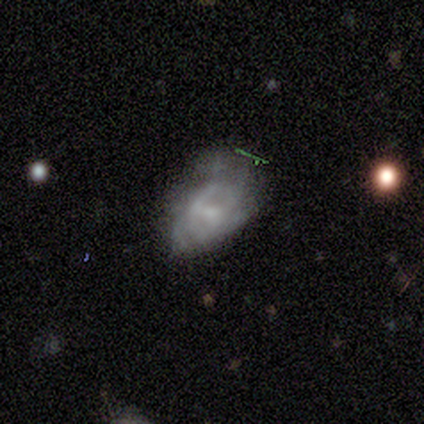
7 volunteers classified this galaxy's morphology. A smooth galaxy with no disk features (57%) that is in between round and cigar-shaped (100%). Merging: none (50%, tied with minor disturbance).